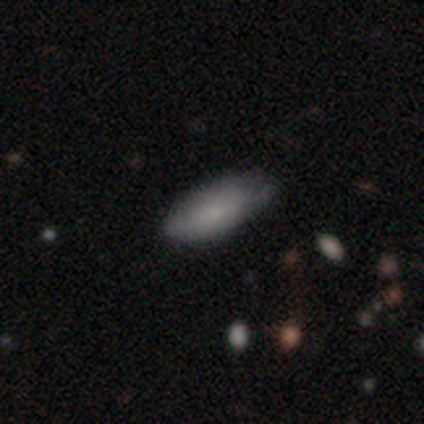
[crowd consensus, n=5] smooth-or-featured: smooth: 100% | featured or disk: 0% | star or artifact: 0%
  how-rounded: in between: 80% | cigar-shaped: 20% | round: 0%
  merging: minor disturbance: 60% | none: 20% | major disturbance: 20% | merger: 0%